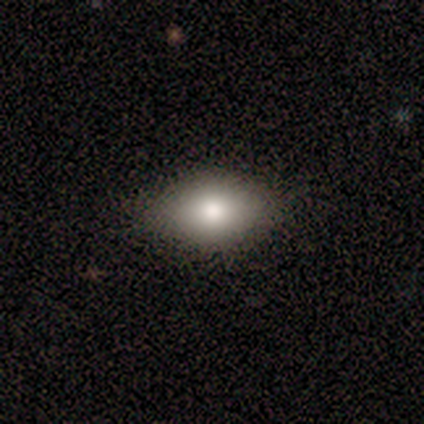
A smooth galaxy with no disk features (100%) that is in between round and cigar-shaped (100%). Merging: none (100%).